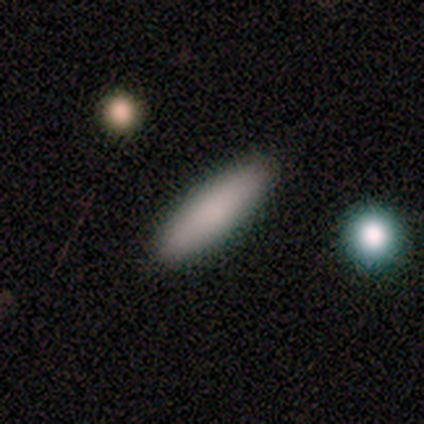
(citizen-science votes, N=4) smooth-or-featured: smooth: 100% | featured or disk: 0% | star or artifact: 0%
  how-rounded: in between: 50% (tied) | cigar-shaped: 50% (tied) | round: 0%
  merging: none: 100% | minor disturbance: 0% | major disturbance: 0% | merger: 0%